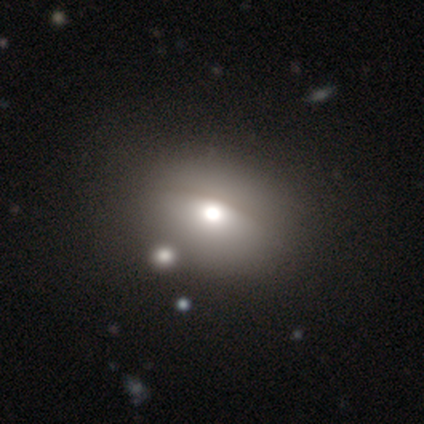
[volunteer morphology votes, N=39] smooth 69%, featured or disk 23%, star or artifact 8%. Down the decision tree: how rounded — in between (52%); merging — none (58%).